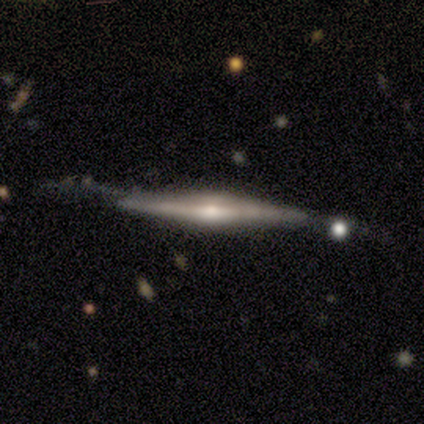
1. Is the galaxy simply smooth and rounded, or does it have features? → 100% featured or disk, 0% smooth, 0% star or artifact.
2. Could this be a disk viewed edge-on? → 100% yes, 0% no.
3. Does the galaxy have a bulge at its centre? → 100% rounded, 0% boxy, 0% none.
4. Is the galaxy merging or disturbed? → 60% minor disturbance, 40% none, 0% major disturbance, 0% merger.